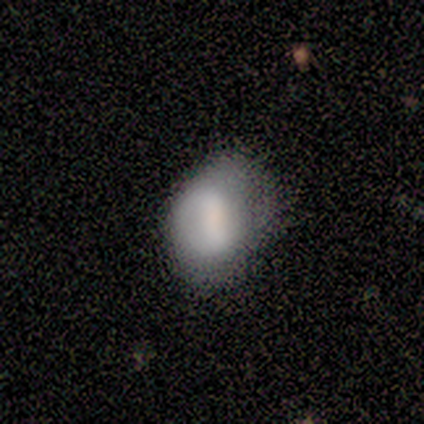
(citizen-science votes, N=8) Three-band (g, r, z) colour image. It shows a smooth galaxy with no disk features (50%, tied with featured or disk) that is in between round and cigar-shaped (100%). Merging: minor disturbance (62%).